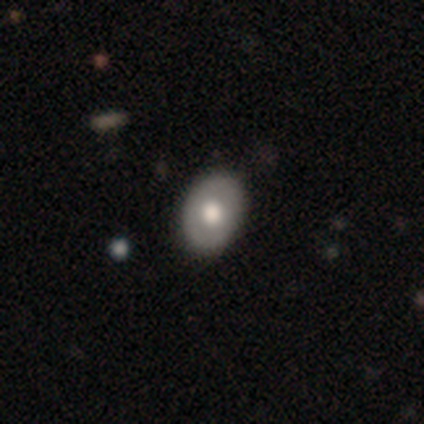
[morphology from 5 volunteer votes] smooth-or-featured: smooth: 60% | featured or disk: 40% | star or artifact: 0%
  how-rounded: in between: 100% | round: 0% | cigar-shaped: 0%
  merging: none: 100% | minor disturbance: 0% | major disturbance: 0% | merger: 0%